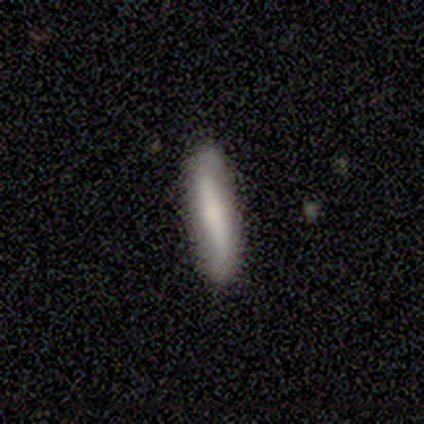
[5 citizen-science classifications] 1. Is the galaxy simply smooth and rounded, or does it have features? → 80% smooth, 20% featured or disk, 0% star or artifact.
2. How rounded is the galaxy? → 100% cigar-shaped, 0% round, 0% in between.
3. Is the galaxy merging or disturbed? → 80% none, 20% minor disturbance, 0% major disturbance, 0% merger.